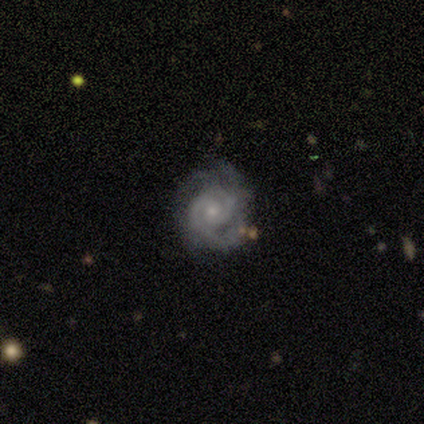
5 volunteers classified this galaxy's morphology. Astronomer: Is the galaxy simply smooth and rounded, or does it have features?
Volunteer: featured or disk — 80%.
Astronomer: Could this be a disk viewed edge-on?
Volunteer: no — 100%.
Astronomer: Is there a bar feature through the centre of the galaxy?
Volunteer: no — 100%.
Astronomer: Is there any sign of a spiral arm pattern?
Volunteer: yes — 100%.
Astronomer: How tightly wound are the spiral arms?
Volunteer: tight — 75%.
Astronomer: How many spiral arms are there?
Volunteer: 2 — 75%.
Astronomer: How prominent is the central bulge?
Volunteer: small — 50%.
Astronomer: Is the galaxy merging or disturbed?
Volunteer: none — 75%.